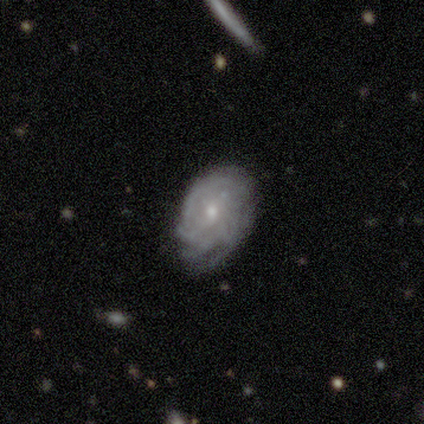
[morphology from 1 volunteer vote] A featured or disk galaxy (100%) with a weak bar (100%), no spiral arms (100%) and a small central bulge (100%).

Vote fractions:
- Smooth or featured? featured or disk: 100% / smooth: 0% / star or artifact: 0%
- Edge-on disk? no: 100% / yes: 0%
- Bar? weak: 100% / strong: 0% / no: 0%
- Spiral arms? no: 100% / yes: 0%
- Bulge size? small: 100% / dominant: 0% / large: 0% / moderate: 0% / none: 0%
- Merging? minor disturbance: 100% / none: 0% / major disturbance: 0% / merger: 0%